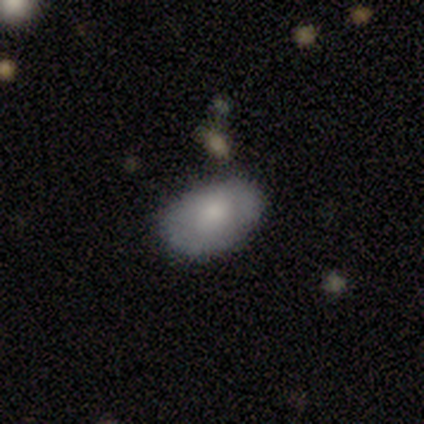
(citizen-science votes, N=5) This is clearly a smooth galaxy (80%). How rounded: clearly in between (100%). Merging: likely none (60%).